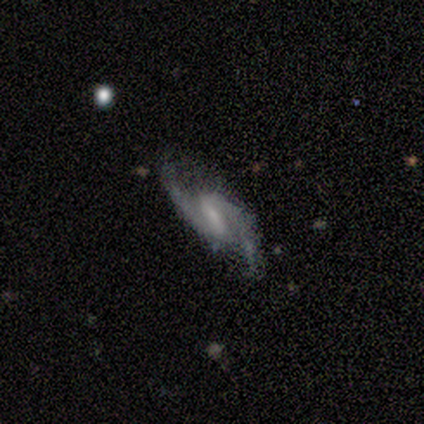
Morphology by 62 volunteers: Volunteers were most divided on "spiral winding": loose: 47%, medium: 42%, tight: 11%. Remaining: spiral arms — yes (100%); spiral arm count — 2 (98%); edge-on disk — no (96%); smooth or featured — featured or disk (92%); merging — none (72%); bar — weak (62%); bulge size — small (49%).